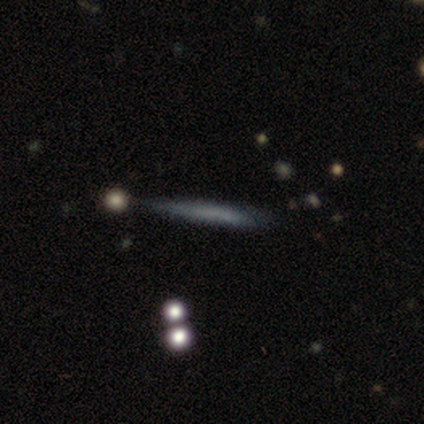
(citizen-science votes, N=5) smooth_or_featured: smooth (p=0.60) [alt: featured or disk p=0.40]
how_rounded: round (p=0.33) [tied with: in between p=0.33, cigar-shaped p=0.33]
merging: none (p=0.60) [alt: minor disturbance p=0.20]